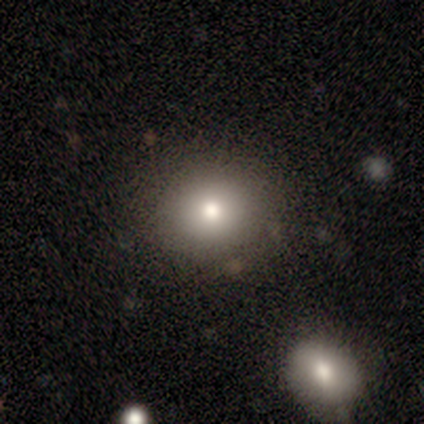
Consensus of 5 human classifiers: A smooth galaxy with no disk features (60%) that is round (100%). Merging: none (100%).